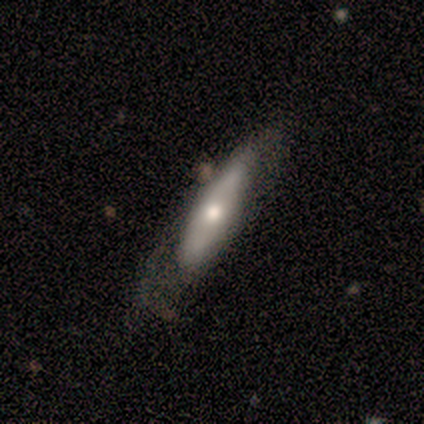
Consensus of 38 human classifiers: Smooth or featured: smooth — 58% (featured or disk — 39%)
How rounded: in between — 50% (tied with cigar-shaped — 50%)
Merging: none — 41% (major disturbance — 32%)